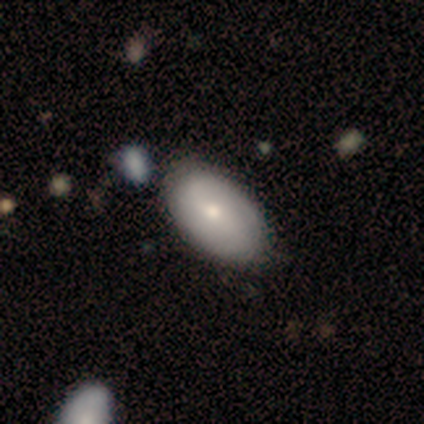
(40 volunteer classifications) smooth_or_featured: smooth (p=0.68) [alt: featured or disk p=0.25]
how_rounded: in between (p=1.00)
merging: none (p=0.59) [alt: merger p=0.19]